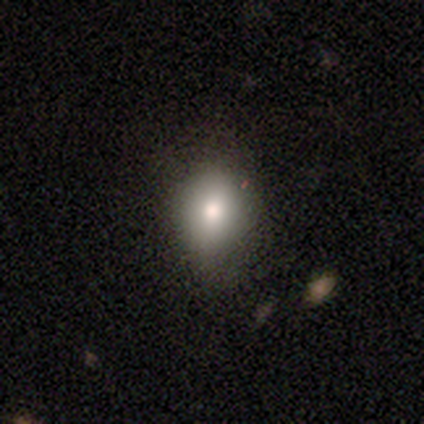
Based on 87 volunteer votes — Overall: smooth (71%). How rounded: round (52%; in between 45%). Merging: none (70%).